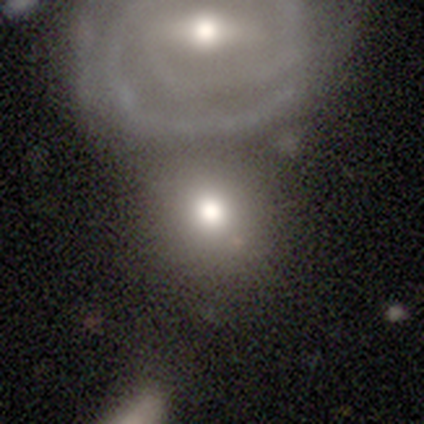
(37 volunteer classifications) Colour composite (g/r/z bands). It shows a smooth galaxy with no disk features (59%) that is round (86%). Merging: merger (50%).